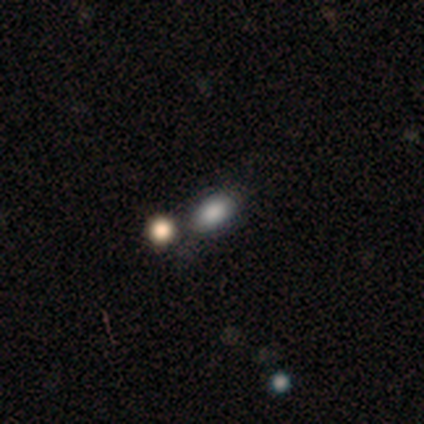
A smooth galaxy with no disk features (82%) that is in between round and cigar-shaped (78%).

Vote fractions:
- Smooth or featured? smooth: 82% / featured or disk: 9% / star or artifact: 9%
- How rounded? in between: 78% / round: 22% / cigar-shaped: 0%
- Merging? none: 60% / merger: 30% / minor disturbance: 10% / major disturbance: 0%